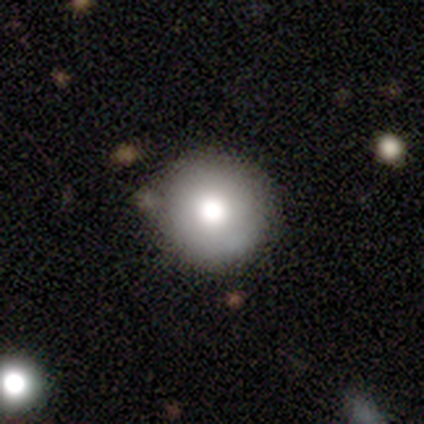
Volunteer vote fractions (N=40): This appears to be a smooth galaxy with no disk features (82%) that is round (97%). Merging: none (59%).